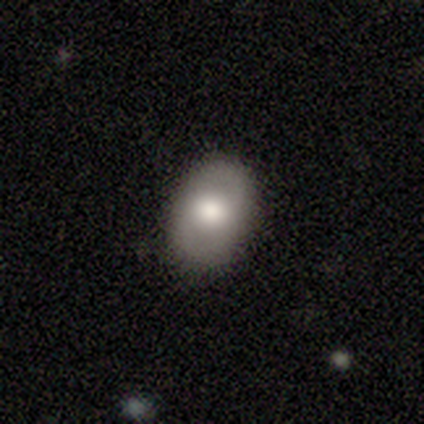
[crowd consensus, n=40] This appears to be a smooth galaxy with no disk features (62%) that is in between round and cigar-shaped (80%). Merging: none (84%).